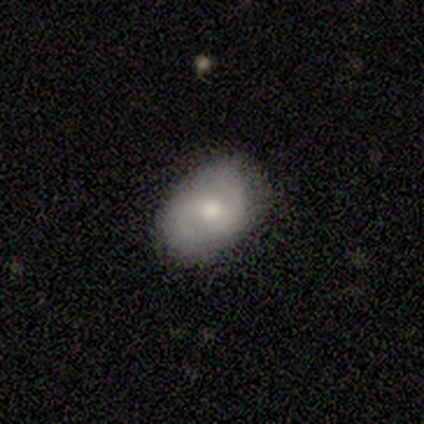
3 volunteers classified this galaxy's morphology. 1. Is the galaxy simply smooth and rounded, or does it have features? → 67% featured or disk, 33% smooth, 0% star or artifact.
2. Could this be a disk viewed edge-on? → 100% no, 0% yes.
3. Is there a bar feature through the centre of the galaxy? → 50% strong (tied), 50% no (tied), 0% weak.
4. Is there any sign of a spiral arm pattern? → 100% yes, 0% no.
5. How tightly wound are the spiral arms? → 50% medium (tied), 50% loose (tied), 0% tight.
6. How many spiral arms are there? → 100% 2, 0% 1, 0% 3, 0% 4, 0% more than 4, 0% can't tell.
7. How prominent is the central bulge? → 100% moderate, 0% dominant, 0% large, 0% small, 0% none.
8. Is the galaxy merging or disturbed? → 67% none, 33% minor disturbance, 0% major disturbance, 0% merger.